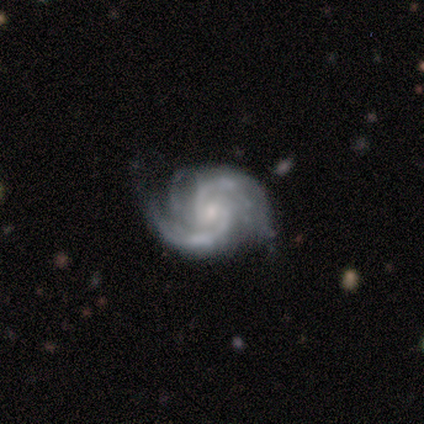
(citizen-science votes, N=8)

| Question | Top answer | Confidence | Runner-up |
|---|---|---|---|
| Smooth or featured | featured or disk | 100% | — |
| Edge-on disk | no | 100% | — |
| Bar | no | 88% | weak (12%) |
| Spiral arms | yes | 100% | — |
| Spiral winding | medium | 62% | tight (38%) |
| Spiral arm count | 2 | 75% | 1 (12%) |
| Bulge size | small | 88% | none (12%) |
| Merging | none | 75% | minor disturbance (12%) |